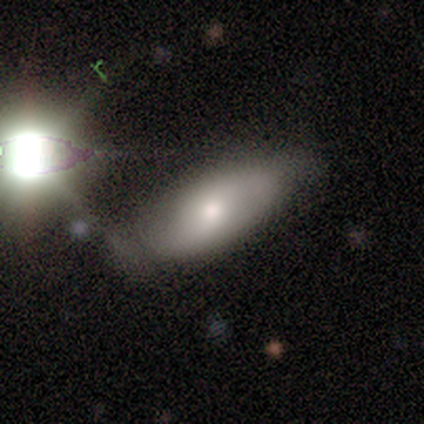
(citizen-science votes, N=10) Smooth or featured? smooth (60%)
How rounded? in between (100%)
Merging? minor disturbance (56%)